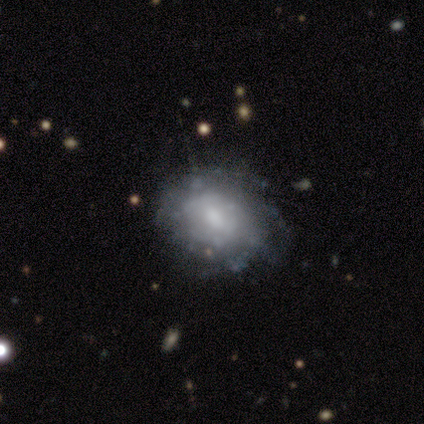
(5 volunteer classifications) smooth-or-featured: featured or disk: 60% | smooth: 40% | star or artifact: 0%
  disk-edge-on: no: 100% | yes: 0%
    bar: no: 67% | weak: 33% | strong: 0%
    has-spiral-arms: no: 67% | yes: 33%
    bulge-size: dominant: 33% (tied) | moderate: 33% (tied) | small: 33% (tied) | large: 0% | none: 0%
  merging: none: 80% | minor disturbance: 20% | major disturbance: 0% | merger: 0%